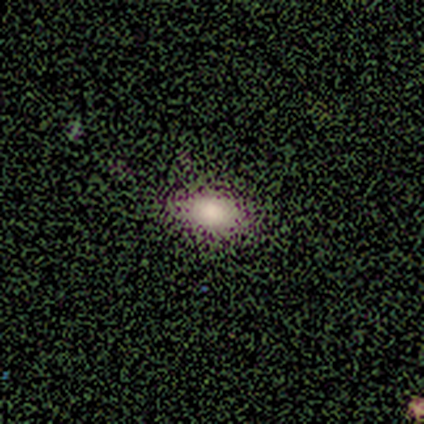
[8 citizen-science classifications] Morphology: type=smooth (62%); roundness=in between (60%); merging=none (80%).